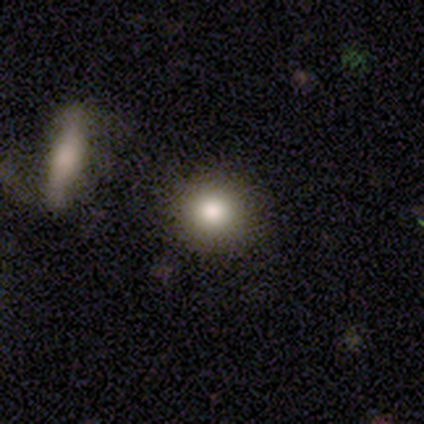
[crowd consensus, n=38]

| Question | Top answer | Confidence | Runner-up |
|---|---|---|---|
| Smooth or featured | smooth | 76% | featured or disk (16%) |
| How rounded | round | 79% | in between (17%) |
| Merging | none | 89% | minor disturbance (9%) |